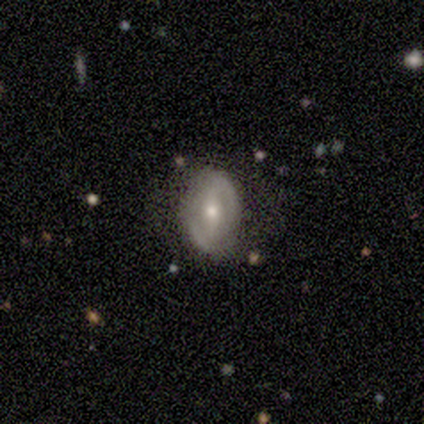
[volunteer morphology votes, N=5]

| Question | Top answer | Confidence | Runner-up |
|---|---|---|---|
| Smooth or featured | featured or disk | 80% | smooth (20%) |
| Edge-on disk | no | 100% | — |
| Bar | strong | 50% | weak (25%) |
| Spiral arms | yes | 50% | tied: no (50%) |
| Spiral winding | medium | 50% | tied: loose (50%) |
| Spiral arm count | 2 | 100% | — |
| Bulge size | small | 50% | large (25%) |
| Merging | none | 80% | minor disturbance (20%) |